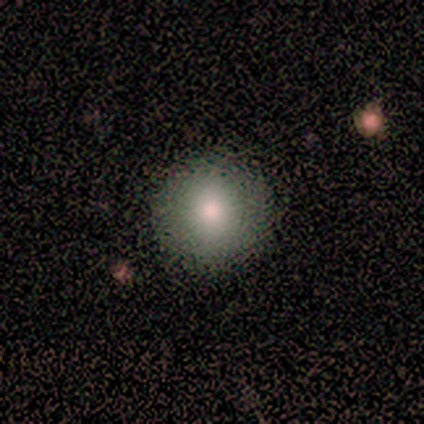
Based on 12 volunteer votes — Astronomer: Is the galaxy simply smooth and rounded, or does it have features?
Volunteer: smooth — 83%.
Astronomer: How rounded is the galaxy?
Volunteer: round — 90%.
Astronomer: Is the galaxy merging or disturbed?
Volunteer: none — 91%.